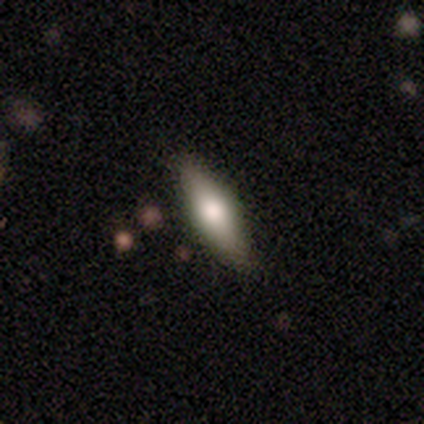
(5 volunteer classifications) Q: Smooth or featured?
A: featured or disk (60%); runner-up: smooth (40%)
Q: Edge-on disk?
A: yes (100%)
Q: Edge-on bulge?
A: rounded (100%)
Q: Merging?
A: none (80%); runner-up: minor disturbance (20%)